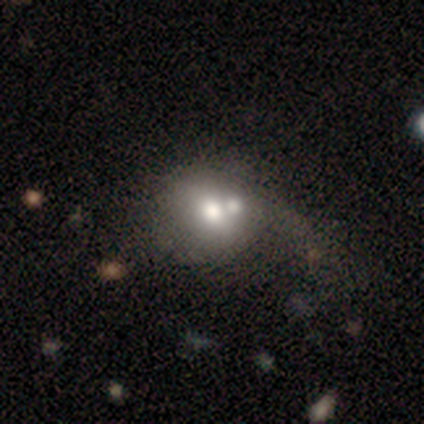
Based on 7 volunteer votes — Overall: smooth (71%). How rounded: round (80%). Merging: minor disturbance (33%, tied with merger).